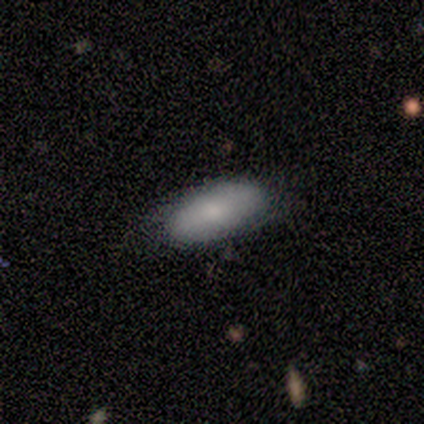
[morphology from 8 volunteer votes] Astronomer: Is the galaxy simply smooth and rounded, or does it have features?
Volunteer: smooth — 88%.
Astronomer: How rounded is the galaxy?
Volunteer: in between — 100%.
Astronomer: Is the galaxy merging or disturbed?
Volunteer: none — 71%.